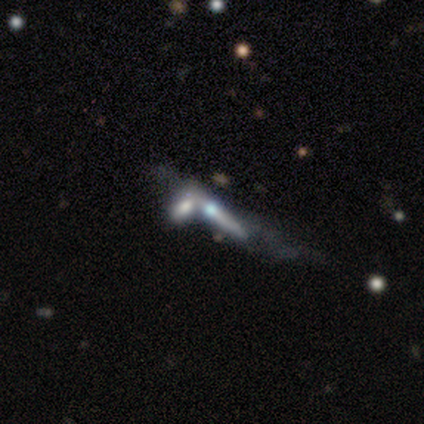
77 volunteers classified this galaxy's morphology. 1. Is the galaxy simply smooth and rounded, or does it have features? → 74% featured or disk, 17% smooth, 9% star or artifact.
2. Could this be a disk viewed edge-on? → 79% yes, 21% no.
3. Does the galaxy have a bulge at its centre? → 89% rounded, 9% none, 2% boxy.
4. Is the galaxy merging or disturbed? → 57% merger, 9% major disturbance, 6% none, 1% minor disturbance.